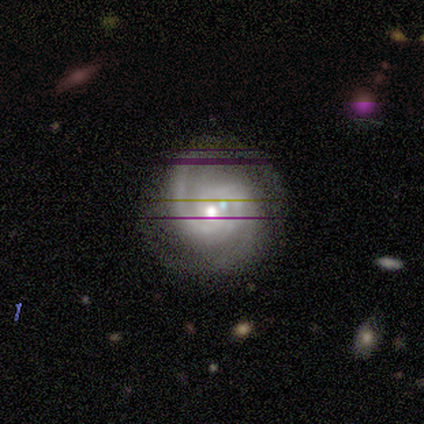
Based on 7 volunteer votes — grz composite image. It shows a featured or disk galaxy (86%) with no bar (67%), 2 (83%) tight (83%) spiral arms (100%) and a moderate central bulge (83%). Merging: none (100%).